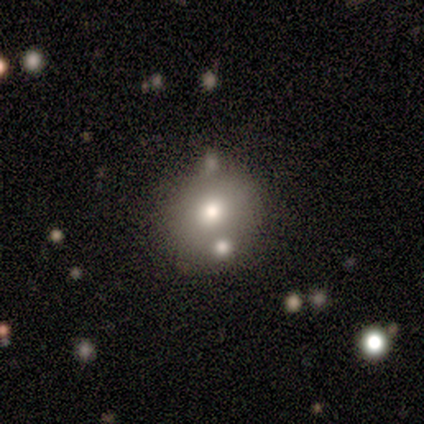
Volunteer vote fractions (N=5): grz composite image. It shows a star or artifact, not a galaxy (60%).